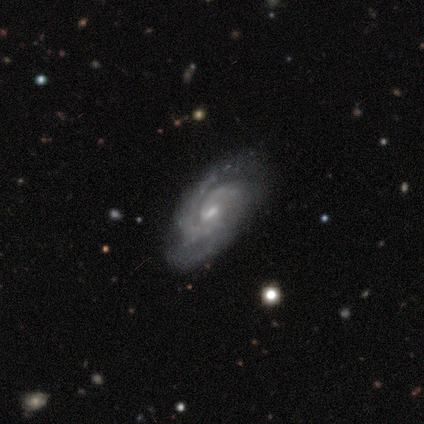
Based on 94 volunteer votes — A featured or disk galaxy (88%) with a weak bar (50%), 2 (49%) tight (61%) spiral arms (98%) and a small central bulge (72%). Merging: none (78%).